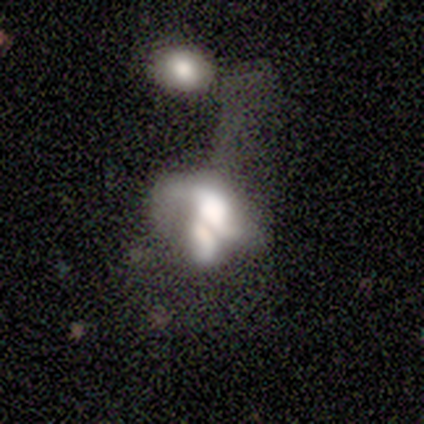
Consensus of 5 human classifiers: A smooth galaxy with no disk features (40%, tied with featured or disk) that is in between round and cigar-shaped (100%).

Vote fractions:
- Smooth or featured? smooth: 40% (tied) / featured or disk: 40% (tied) / star or artifact: 20%
- How rounded? in between: 100% / round: 0% / cigar-shaped: 0%
- Merging? merger: 50% / none: 25% / major disturbance: 25% / minor disturbance: 0%